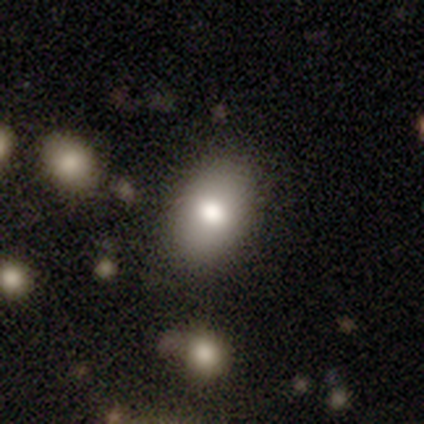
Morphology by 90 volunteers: smooth_or_featured: smooth (p=0.77) [alt: featured or disk p=0.12]
how_rounded: in between (p=0.90) [alt: round p=0.09]
merging: none (p=0.75) [alt: minor disturbance p=0.21]